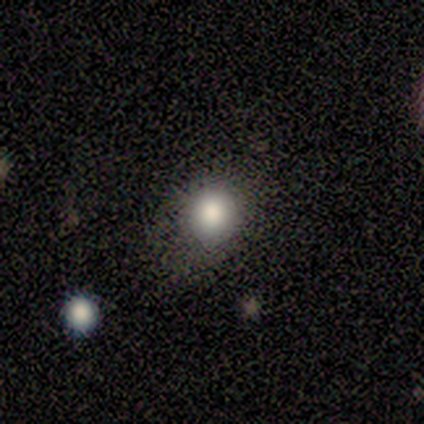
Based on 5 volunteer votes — This appears to be a smooth galaxy with no disk features (100%) that is round (80%). Merging: none (80%).